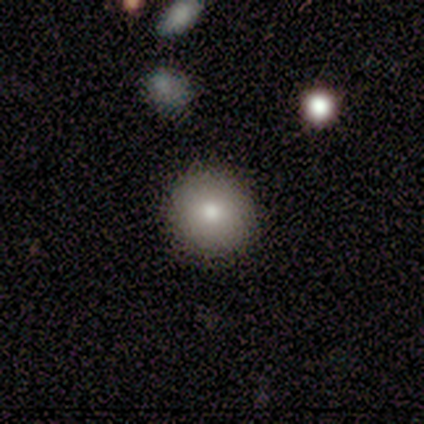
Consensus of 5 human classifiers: Overall: smooth (80%). How rounded: round (75%). Merging: none (75%).